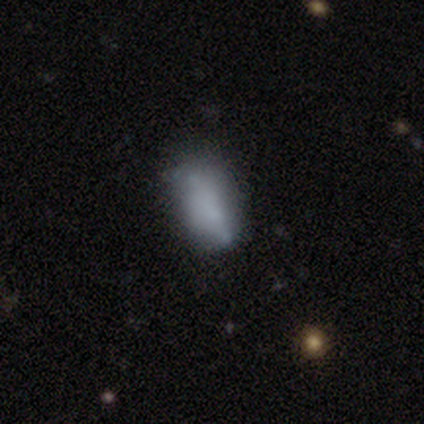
Smooth or featured? 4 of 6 (67%) said featured or disk. Edge-on disk? 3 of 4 (75%) said no. Bar? 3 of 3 (100%) said no. Spiral arms? 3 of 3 (100%) said no. Bulge size? 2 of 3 (67%) said small. Merging? 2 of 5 (40%, tied with major disturbance) said none.